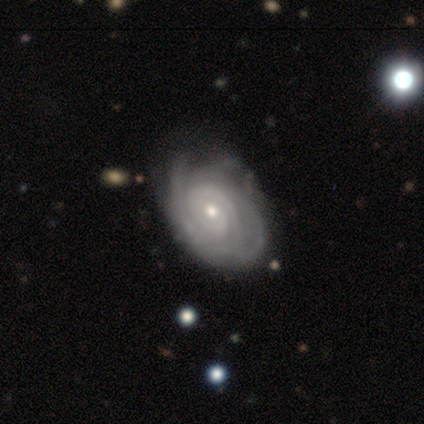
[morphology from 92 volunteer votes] type=featured or disk (91%); edge-on=no (98%); bar=no (70%); spiral arms=yes (98%); winding=tight (89%); arm count=can't tell (34%); bulge=small (70%); merging=none (64%).